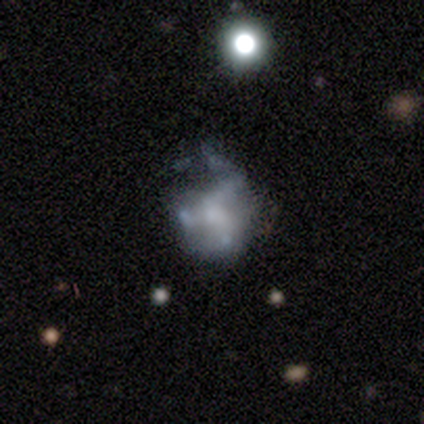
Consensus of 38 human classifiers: This is likely a featured or disk galaxy (66%). It is clearly not viewed edge-on (100%). Bar: clearly no (84%). Spiral arm pattern: likely no (72%). Central bulge: marginally none (44%). Merging: possibly major disturbance (45%).